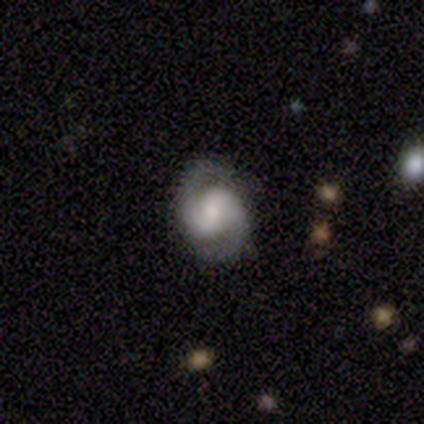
Morphology: type=featured or disk (100%); edge-on=no (100%); bar=strong (40%, tied with no); spiral arms=yes (100%); winding=medium (80%); arm count=2 (100%); bulge=large (40%, tied with moderate); merging=none (80%).